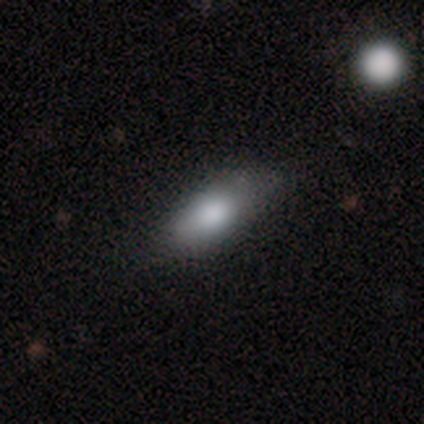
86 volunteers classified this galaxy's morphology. smooth 86%, star or artifact 8%, featured or disk 6%. Down the decision tree: how rounded — in between (73%); merging — none (66%).